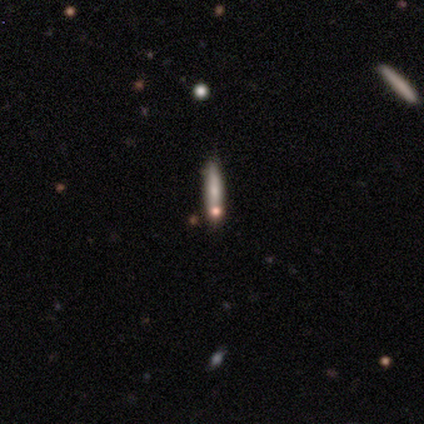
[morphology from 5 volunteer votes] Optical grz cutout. It shows a smooth galaxy with no disk features (80%) that is cigar-shaped (100%). Merging: none (100%).